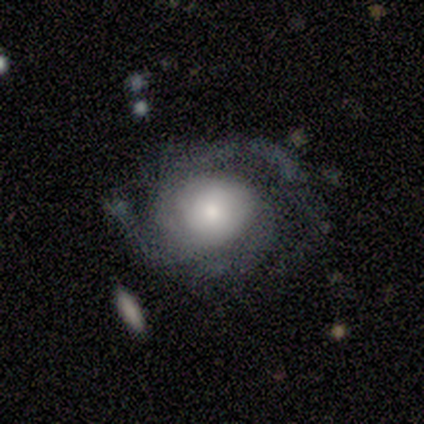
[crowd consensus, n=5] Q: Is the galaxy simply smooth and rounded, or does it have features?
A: featured or disk — 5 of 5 (100%).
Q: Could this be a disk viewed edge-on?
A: no — 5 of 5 (100%).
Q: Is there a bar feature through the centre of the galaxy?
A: no — 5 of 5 (100%).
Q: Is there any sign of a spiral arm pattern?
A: yes — 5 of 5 (100%).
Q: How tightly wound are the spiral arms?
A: tight — 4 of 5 (80%).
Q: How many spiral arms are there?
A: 2 — 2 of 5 (40%, tied with 3).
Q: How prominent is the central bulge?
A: large — 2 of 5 (40%, tied with small).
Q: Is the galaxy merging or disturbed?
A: none — 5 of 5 (100%).